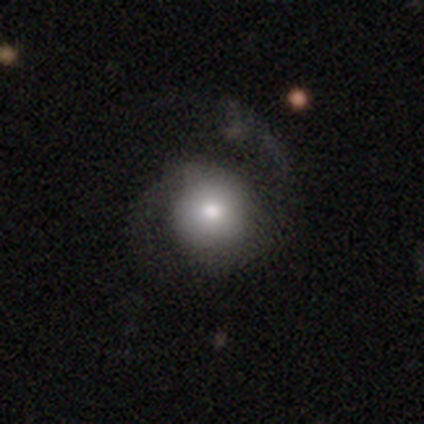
Volunteers were most divided on "bulge size" (2-way tie): dominant: 50%, moderate: 50%, large: 0%, small: 0%, none: 0%. More confident: edge-on disk — no (100%); bar — no (100%); spiral arm count — 2 (100%); smooth or featured — featured or disk (80%); spiral arms — yes (75%); spiral winding — loose (67%); merging — none (60%).